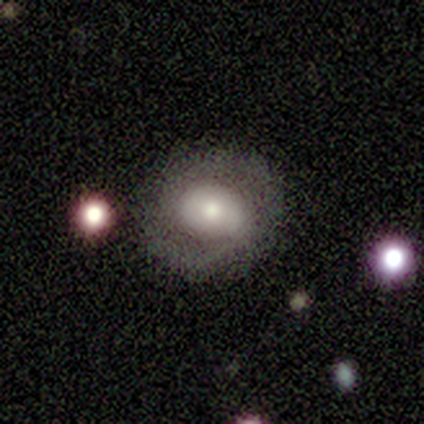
Smooth or featured: featured or disk — 75% (smooth — 25%)
Edge-on disk: no — 100%
Bar: no — 100%
Spiral arms: yes — 67% (no — 33%)
Spiral winding: medium — 50% (tied with loose — 50%)
Spiral arm count: 1 — 50% (tied with 2 — 50%)
Bulge size: large — 67% (moderate — 33%)
Merging: none — 100%